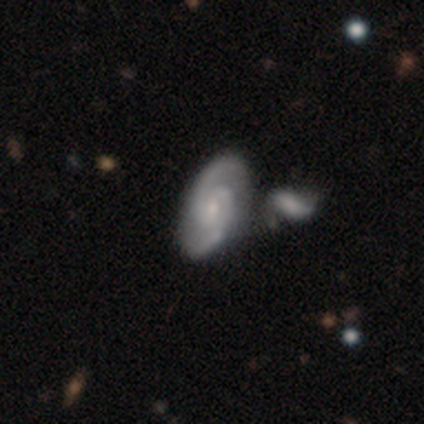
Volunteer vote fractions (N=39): Overall: featured or disk (87%). Edge-on disk: no (97%). Bar: no (58%; weak 33%). Spiral arms: yes (100%). Spiral arm count: 2 (91%). Spiral winding: medium (61%; tight 27%). Bulge size: small (67%; moderate 27%). Merging: none (47%; merger 29%).